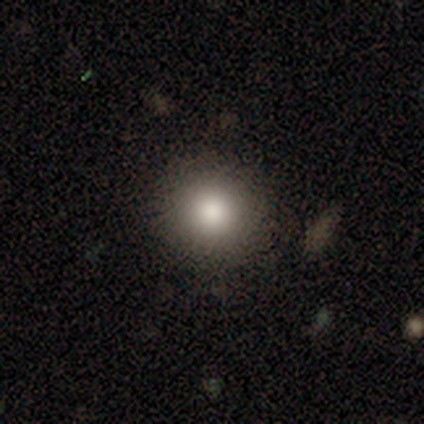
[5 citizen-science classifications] smooth-or-featured: smooth: 100% | featured or disk: 0% | star or artifact: 0%
  how-rounded: round: 80% | in between: 20% | cigar-shaped: 0%
  merging: none: 100% | minor disturbance: 0% | major disturbance: 0% | merger: 0%